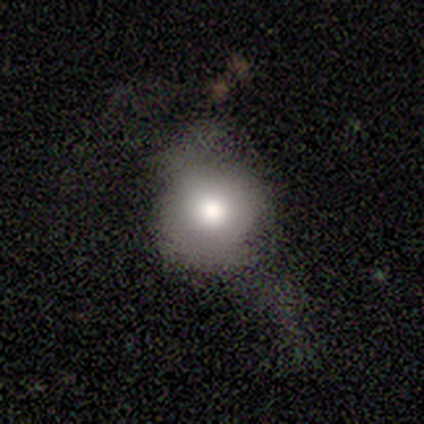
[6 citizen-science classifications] Q: Smooth or featured?
A: smooth (67%); runner-up: featured or disk (17%)
Q: How rounded?
A: round (100%)
Q: Merging?
A: none (40%); tied with: major disturbance (40%)